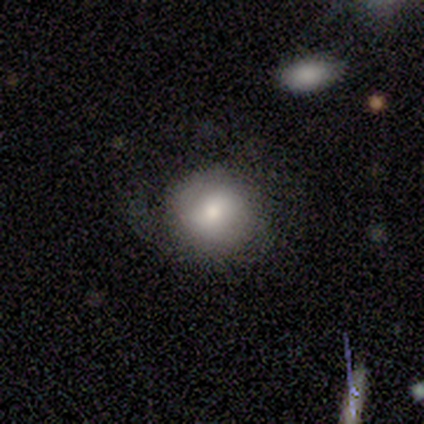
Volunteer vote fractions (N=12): This appears to be a smooth galaxy with no disk features (67%) that is round (100%). Merging: none (70%).